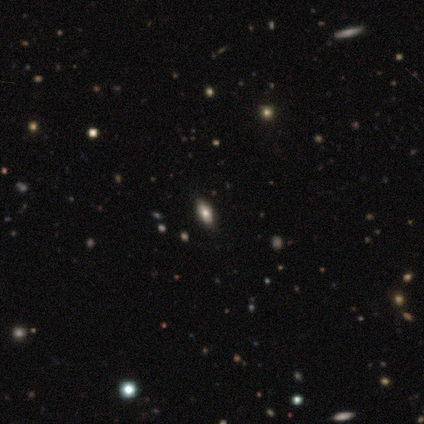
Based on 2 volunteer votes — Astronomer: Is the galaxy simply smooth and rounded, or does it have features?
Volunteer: smooth — 50%, tied with star or artifact at 50%.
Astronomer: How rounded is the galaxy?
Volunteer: round — 100%.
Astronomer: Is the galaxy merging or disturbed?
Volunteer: none — 100%.